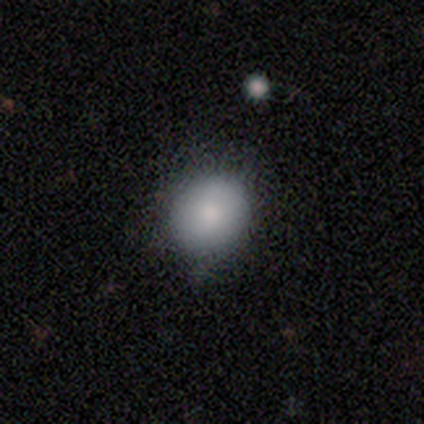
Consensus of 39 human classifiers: Smooth or featured?
  - smooth: 85% *
  - featured or disk: 13%
  - star or artifact: 3%
How rounded?
  - round: 91% *
  - in between: 9%
  - cigar-shaped: 0%
Merging?
  - none: 61% *
  - minor disturbance: 34%
  - major disturbance: 3%
  - merger: 3%